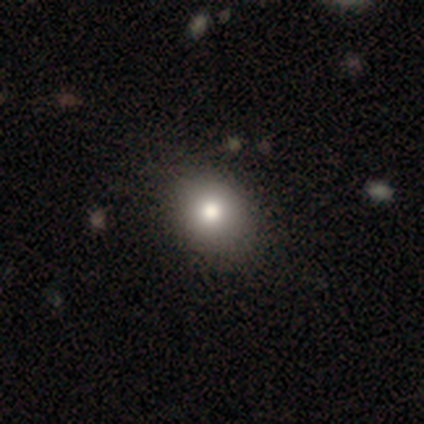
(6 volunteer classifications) Smooth or featured: smooth — 100%
How rounded: in between — 83% (round — 17%)
Merging: none — 67% (minor disturbance — 33%)